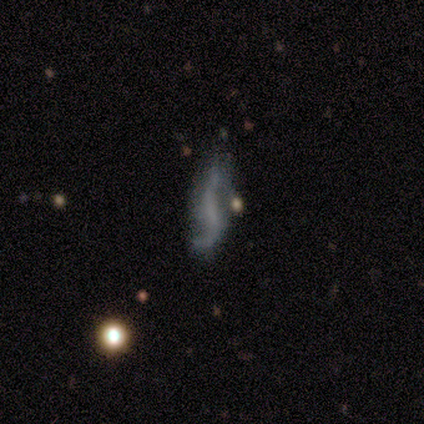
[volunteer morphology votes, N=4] A featured or disk galaxy (50%) with a weak bar (50%, tied with no), 2 (100%) medium (100%) spiral arms (50%, tied with no) and a dominant central bulge (50%, tied with none).

Vote fractions:
- Smooth or featured? featured or disk: 50% / smooth: 25% / star or artifact: 25%
- Edge-on disk? no: 100% / yes: 0%
- Bar? weak: 50% (tied) / no: 50% (tied) / strong: 0%
- Spiral arms? yes: 50% (tied) / no: 50% (tied)
- Spiral winding? medium: 100% / tight: 0% / loose: 0%
- Spiral arm count? 2: 100% / 1: 0% / 3: 0% / 4: 0% / more than 4: 0% / can't tell: 0%
- Bulge size? dominant: 50% (tied) / none: 50% (tied) / large: 0% / moderate: 0% / small: 0%
- Merging? major disturbance: 67% / none: 33% / minor disturbance: 0% / merger: 0%